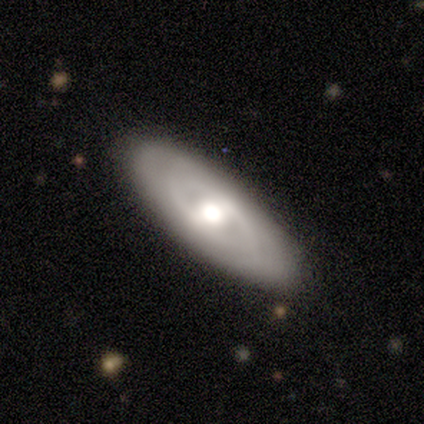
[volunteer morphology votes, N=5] type=featured or disk (100%); edge-on=no (80%); bar=weak (100%); spiral arms=yes (50%, tied with no); winding=tight (100%); arm count=can't tell (100%); bulge=large (50%); merging=none (100%).